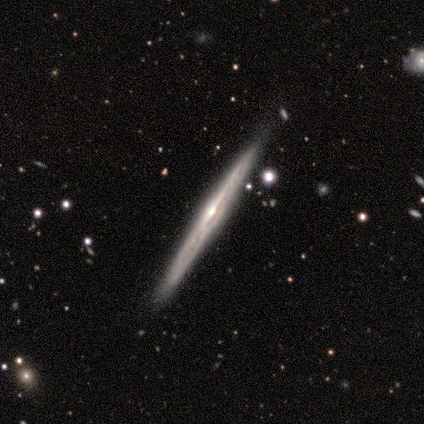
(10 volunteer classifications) Volunteers were most divided on "edge-on bulge": none: 56%, rounded: 44%, boxy: 0%. More confident: edge-on disk — yes (100%); smooth or featured — featured or disk (90%); merging — none (89%).